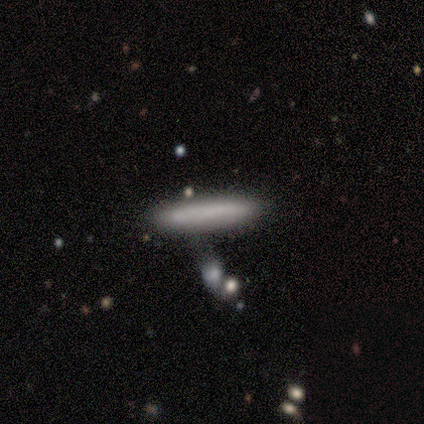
smooth 60%, featured or disk 40%, star or artifact 0%. Down the decision tree: how rounded — cigar-shaped (100%); merging — none (100%).